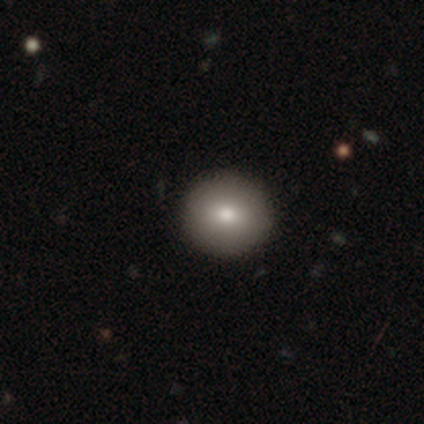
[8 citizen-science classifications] Volunteers were most divided on "smooth or featured": smooth: 88%, featured or disk: 12%, star or artifact: 0%. More confident: how rounded — round (100%); merging — none (100%).